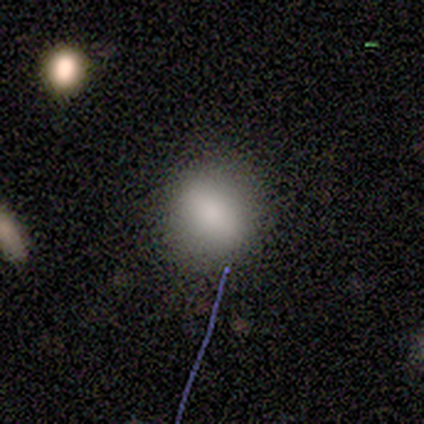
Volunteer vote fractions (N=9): Smooth or featured?
  - smooth: 89% *
  - featured or disk: 11%
  - star or artifact: 0%
How rounded?
  - round: 75% *
  - in between: 25%
  - cigar-shaped: 0%
Merging?
  - none: 67% *
  - minor disturbance: 33%
  - major disturbance: 0%
  - merger: 0%